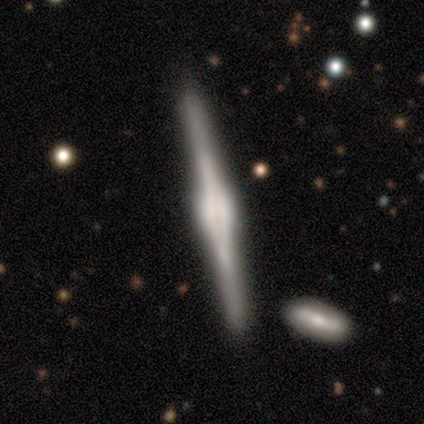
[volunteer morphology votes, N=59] A featured or disk galaxy (85%) viewed edge-on (98%) with a rounded central bulge (63%). Merging: none (82%).